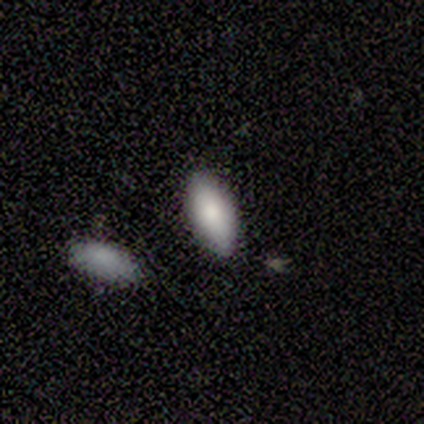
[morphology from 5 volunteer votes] Smooth or featured?
  - smooth: 60% *
  - featured or disk: 20%
  - star or artifact: 20%
How rounded?
  - in between: 100% *
  - round: 0%
  - cigar-shaped: 0%
Merging?
  - none: 75% *
  - minor disturbance: 25%
  - major disturbance: 0%
  - merger: 0%